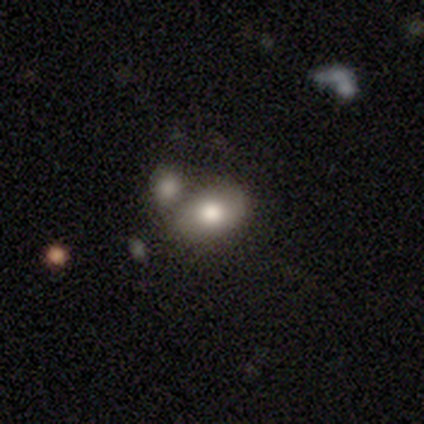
smooth 82%, featured or disk 12%, star or artifact 5%. Down the decision tree: how rounded — in between (79%); merging — merger (66%).